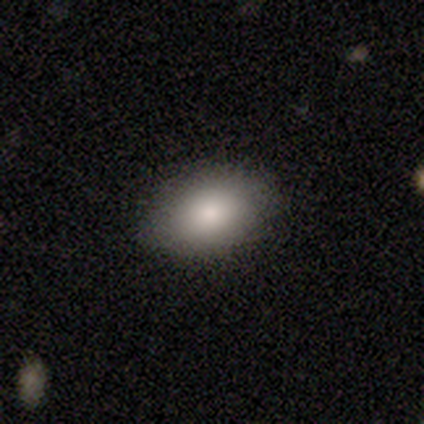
Smooth or featured?
  - smooth: 78% *
  - featured or disk: 15%
  - star or artifact: 7%
How rounded?
  - in between: 94% *
  - round: 6%
  - cigar-shaped: 0%
Merging?
  - none: 89% *
  - minor disturbance: 11%
  - major disturbance: 0%
  - merger: 0%